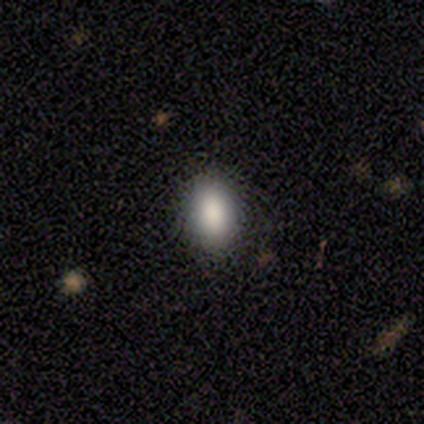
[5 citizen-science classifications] smooth-or-featured: smooth: 80% | featured or disk: 20% | star or artifact: 0%
  how-rounded: in between: 75% | round: 25% | cigar-shaped: 0%
  merging: none: 100% | minor disturbance: 0% | major disturbance: 0% | merger: 0%